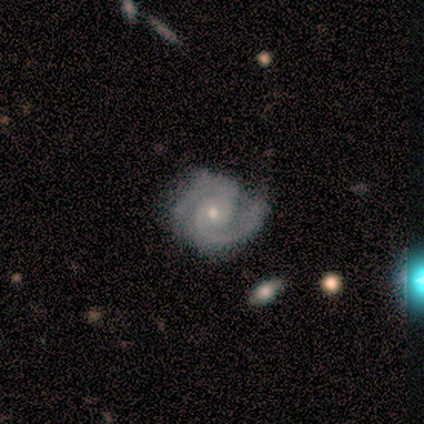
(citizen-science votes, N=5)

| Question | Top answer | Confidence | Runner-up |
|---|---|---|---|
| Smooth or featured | featured or disk | 80% | smooth (20%) |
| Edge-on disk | no | 100% | — |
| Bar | no | 100% | — |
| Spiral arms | yes | 100% | — |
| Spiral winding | tight | 75% | medium (25%) |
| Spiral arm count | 2 | 75% | 3 (25%) |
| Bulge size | moderate | 50% | tied: small (50%) |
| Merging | none | 100% | — |